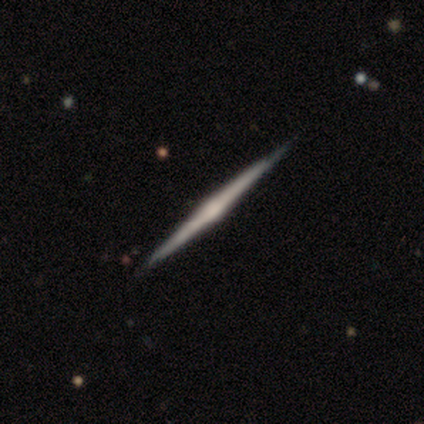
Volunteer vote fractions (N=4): Smooth or featured?
  - featured or disk: 100% *
  - smooth: 0%
  - star or artifact: 0%
Edge-on disk?
  - yes: 100% *
  - no: 0%
Edge-on bulge?
  - rounded: 50% *
  - boxy: 25%
  - none: 25%
Merging?
  - none: 50% *
  - major disturbance: 25%
  - merger: 25%
  - minor disturbance: 0%